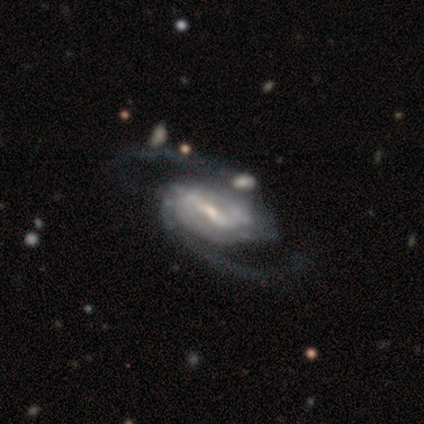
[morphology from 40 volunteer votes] This appears to be a featured or disk galaxy (100%) with a weak bar (46%), 2 (95%) medium (46%) spiral arms (100%) and a small central bulge (62%). Merging: none (45%).